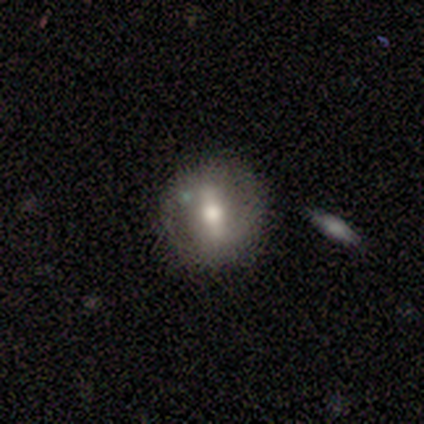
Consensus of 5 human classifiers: Q: Smooth or featured?
A: featured or disk (100%)
Q: Edge-on disk?
A: no (100%)
Q: Bar?
A: weak (60%); runner-up: strong (40%)
Q: Spiral arms?
A: no (80%); runner-up: yes (20%)
Q: Bulge size?
A: moderate (100%)
Q: Merging?
A: none (80%); runner-up: major disturbance (20%)